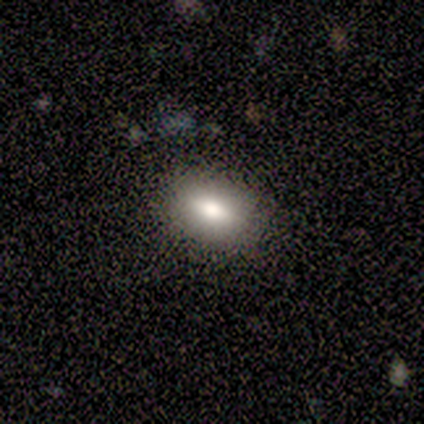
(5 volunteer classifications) A smooth galaxy with no disk features (100%) that is in between round and cigar-shaped (100%).

Vote fractions:
- Smooth or featured? smooth: 100% / featured or disk: 0% / star or artifact: 0%
- How rounded? in between: 100% / round: 0% / cigar-shaped: 0%
- Merging? none: 100% / minor disturbance: 0% / major disturbance: 0% / merger: 0%